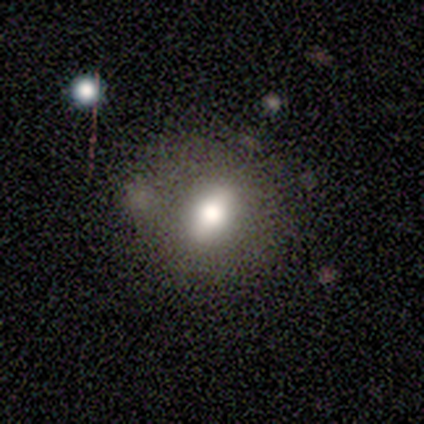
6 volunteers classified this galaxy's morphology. smooth_or_featured: smooth (p=0.67) [alt: featured or disk p=0.33]
how_rounded: in between (p=0.50) [alt: round p=0.25]
merging: none (p=0.67) [alt: minor disturbance p=0.17]